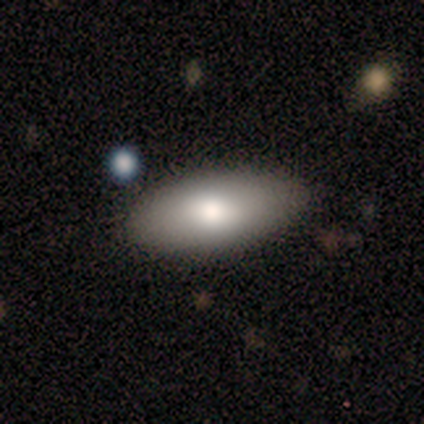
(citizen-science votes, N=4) A smooth galaxy with no disk features (75%) that is in between round and cigar-shaped (100%). Merging: none (100%).